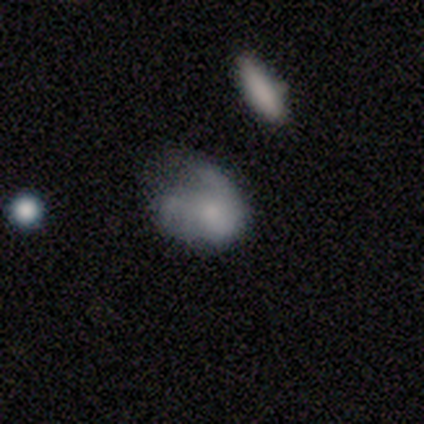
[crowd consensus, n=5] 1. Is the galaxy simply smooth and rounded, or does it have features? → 80% smooth, 20% featured or disk, 0% star or artifact.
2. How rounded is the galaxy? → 100% in between, 0% round, 0% cigar-shaped.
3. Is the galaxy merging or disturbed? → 80% major disturbance, 20% minor disturbance, 0% none, 0% merger.